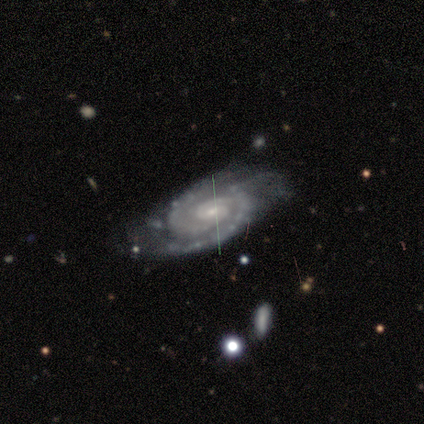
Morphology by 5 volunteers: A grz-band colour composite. It shows a featured or disk galaxy (60%) with no bar (67%), 2 (67%) tight (67%) spiral arms (100%) and a small central bulge (67%). Merging: none (25%, tied with minor disturbance, major disturbance and merger).